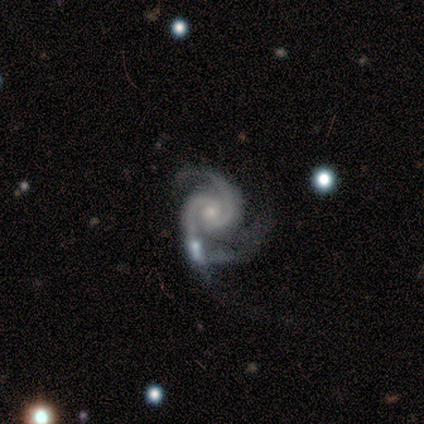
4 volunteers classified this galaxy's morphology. Smooth or featured: featured or disk — 75% (smooth — 25%)
Edge-on disk: no — 100%
Bar: no — 67% (weak — 33%)
Spiral arms: yes — 100%
Spiral winding: medium — 67% (tight — 33%)
Spiral arm count: 2 — 100%
Bulge size: moderate — 67% (small — 33%)
Merging: none — 25% (tied with minor disturbance — 25%; major disturbance — 25%; merger — 25%)